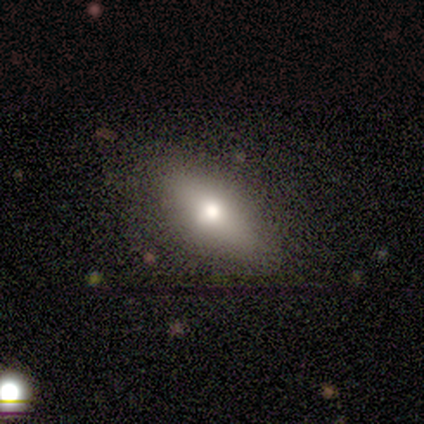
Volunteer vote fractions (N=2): A smooth galaxy with no disk features (50%, tied with featured or disk) that is in between round and cigar-shaped (100%).

Vote fractions:
- Smooth or featured? smooth: 50% (tied) / featured or disk: 50% (tied) / star or artifact: 0%
- How rounded? in between: 100% / round: 0% / cigar-shaped: 0%
- Merging? none: 100% / minor disturbance: 0% / major disturbance: 0% / merger: 0%